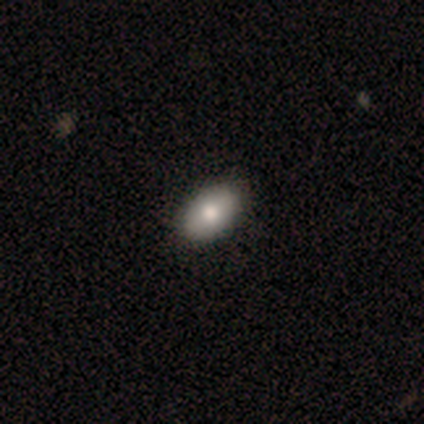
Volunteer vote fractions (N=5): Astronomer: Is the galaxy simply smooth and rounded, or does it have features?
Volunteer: smooth — 80%.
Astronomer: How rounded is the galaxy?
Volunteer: in between — 100%.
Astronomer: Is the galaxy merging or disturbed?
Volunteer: none — 75%.